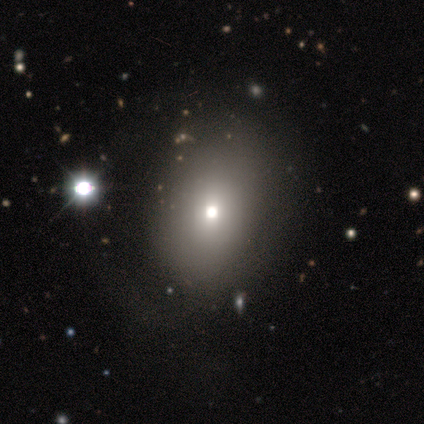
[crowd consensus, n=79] Smooth or featured? smooth (62%)
How rounded? in between (59%)
Merging? none (31%)